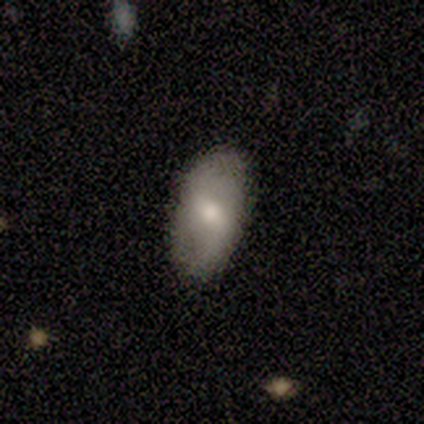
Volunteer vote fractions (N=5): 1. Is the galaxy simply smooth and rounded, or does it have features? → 100% smooth, 0% featured or disk, 0% star or artifact.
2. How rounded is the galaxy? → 100% in between, 0% round, 0% cigar-shaped.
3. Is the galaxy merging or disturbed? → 60% none, 40% minor disturbance, 0% major disturbance, 0% merger.